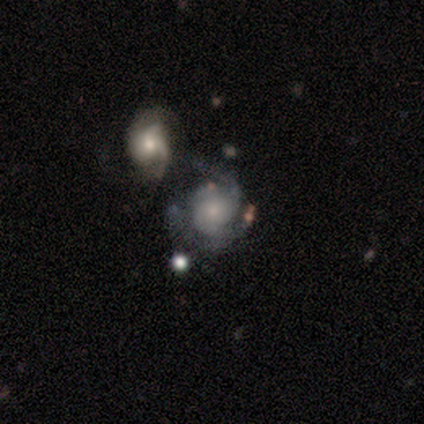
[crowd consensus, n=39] Smooth or featured? featured or disk (90%)
Edge-on disk? no (97%)
Bar? no (74%)
Spiral arms? yes (97%)
Spiral winding? medium (61%)
Spiral arm count? 2 (36%)
Bulge size? small (71%)
Merging? merger (32%)